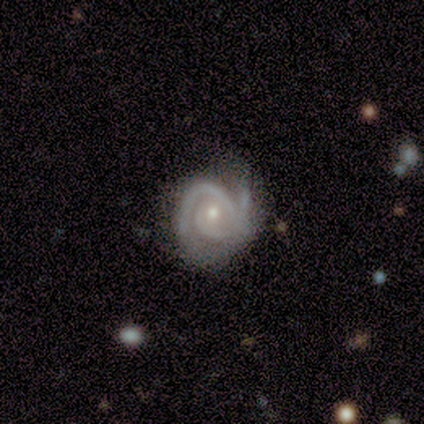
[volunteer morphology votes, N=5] smooth_or_featured: featured or disk (p=1.00)
disk_edge_on: no (p=1.00)
bar: no (p=1.00)
has_spiral_arms: yes (p=1.00)
spiral_winding: tight (p=0.60) [alt: medium p=0.20]
spiral_arm_count: 1 (p=0.40) [alt: 2 p=0.20]
bulge_size: small (p=0.80) [alt: moderate p=0.20]
merging: none (p=0.60) [alt: minor disturbance p=0.40]